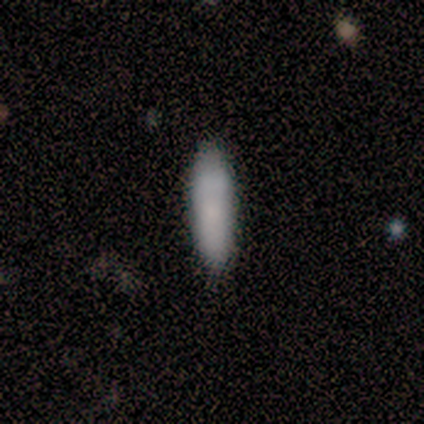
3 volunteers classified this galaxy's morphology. smooth 67%, featured or disk 33%, star or artifact 0%. Down the decision tree: how rounded — cigar-shaped (100%); merging — none (100%).